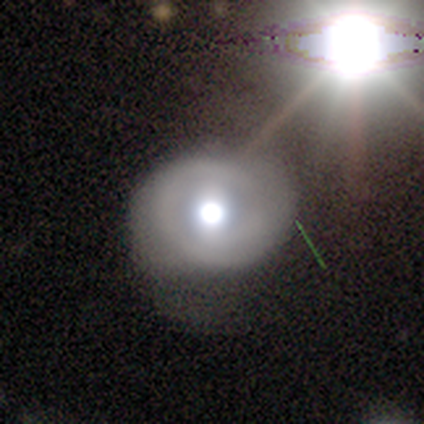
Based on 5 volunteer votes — Smooth or featured: featured or disk — 60% (smooth — 20%)
Edge-on disk: no — 67% (yes — 33%)
Bar: no — 100%
Spiral arms: yes — 100%
Spiral winding: tight — 50% (tied with medium — 50%)
Spiral arm count: 1 — 50% (tied with 2 — 50%)
Bulge size: dominant — 50% (tied with moderate — 50%)
Merging: none — 75% (major disturbance — 25%)